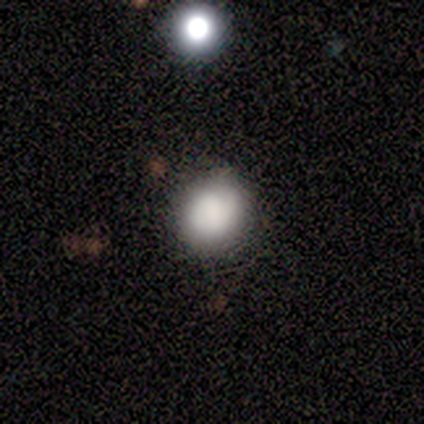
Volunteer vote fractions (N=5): Consensus on every question: smooth or featured — smooth (100%); how rounded — round (100%); merging — none (100%).